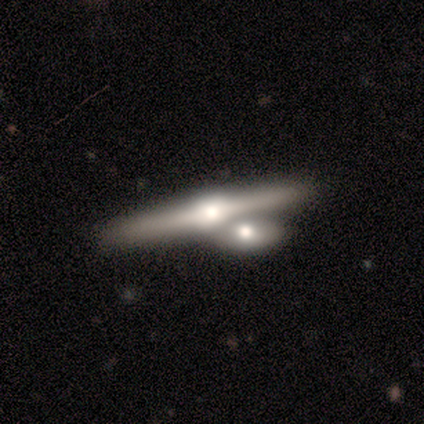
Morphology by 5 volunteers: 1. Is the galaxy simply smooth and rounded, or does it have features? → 100% featured or disk, 0% smooth, 0% star or artifact.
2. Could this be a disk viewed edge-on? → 100% yes, 0% no.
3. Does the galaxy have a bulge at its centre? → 100% rounded, 0% boxy, 0% none.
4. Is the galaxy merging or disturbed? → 60% merger, 40% none, 0% minor disturbance, 0% major disturbance.